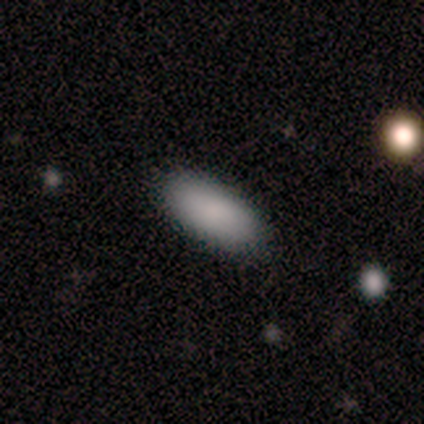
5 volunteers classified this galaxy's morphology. Smooth or featured? 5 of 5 (100%) said smooth. How rounded? 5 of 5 (100%) said in between. Merging? 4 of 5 (80%) said none.